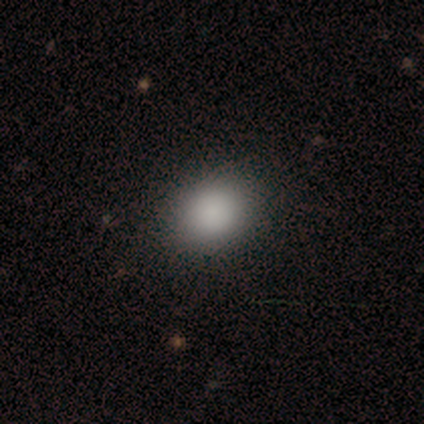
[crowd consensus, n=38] This appears to be a smooth galaxy with no disk features (97%) that is round (54%). Merging: none (57%).